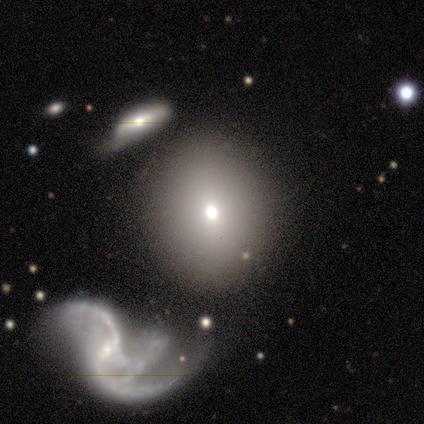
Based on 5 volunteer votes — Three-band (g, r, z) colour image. It shows a smooth galaxy with no disk features (60%) that is round (67%). Merging: none (75%).